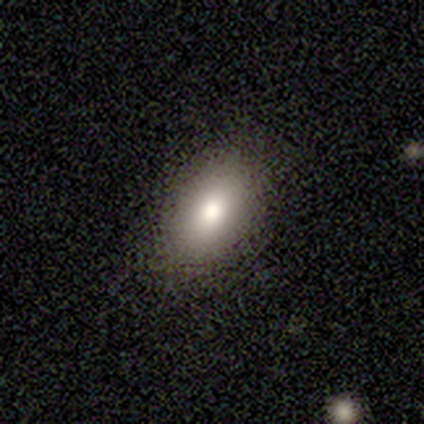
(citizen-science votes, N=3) Q: Smooth or featured?
A: smooth (67%); runner-up: featured or disk (33%)
Q: How rounded?
A: round (50%); tied with: in between (50%)
Q: Merging?
A: none (100%)